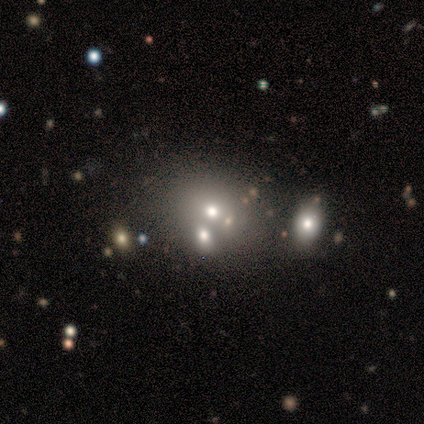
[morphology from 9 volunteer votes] smooth-or-featured: smooth: 56% | star or artifact: 44% | featured or disk: 0%
  how-rounded: round: 60% | in between: 40% | cigar-shaped: 0%
  merging: merger: 60% | none: 40% | minor disturbance: 0% | major disturbance: 0%